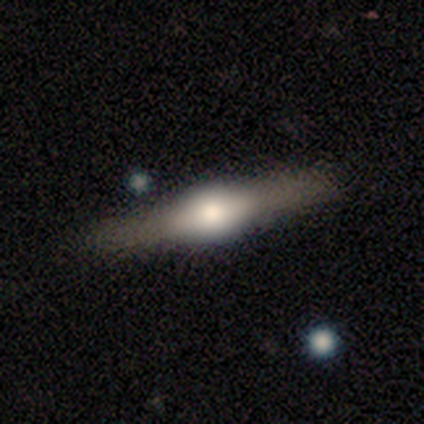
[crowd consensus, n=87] Q: Smooth or featured?
A: featured or disk (75%); runner-up: smooth (24%)
Q: Edge-on disk?
A: yes (97%); runner-up: no (3%)
Q: Edge-on bulge?
A: rounded (90%); runner-up: boxy (8%)
Q: Merging?
A: none (90%); runner-up: minor disturbance (6%)